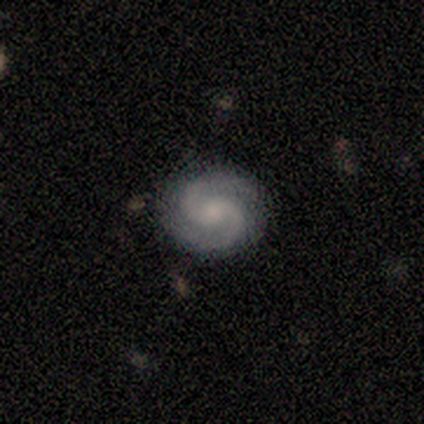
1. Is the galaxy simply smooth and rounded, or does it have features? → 100% featured or disk, 0% smooth, 0% star or artifact.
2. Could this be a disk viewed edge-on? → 100% no, 0% yes.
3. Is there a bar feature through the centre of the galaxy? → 80% no, 20% weak, 0% strong.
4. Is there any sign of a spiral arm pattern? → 100% yes, 0% no.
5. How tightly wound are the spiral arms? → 60% medium, 40% tight, 0% loose.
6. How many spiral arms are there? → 100% 2, 0% 1, 0% 3, 0% 4, 0% more than 4, 0% can't tell.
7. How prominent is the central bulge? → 40% moderate (tied), 40% small (tied), 20% none, 0% dominant, 0% large.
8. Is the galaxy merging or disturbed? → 100% none, 0% minor disturbance, 0% major disturbance, 0% merger.